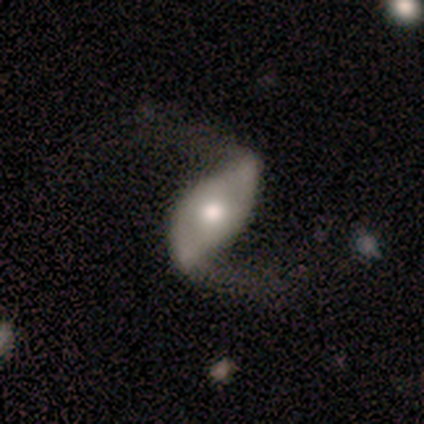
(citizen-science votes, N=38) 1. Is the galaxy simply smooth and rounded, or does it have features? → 89% featured or disk, 5% smooth, 5% star or artifact.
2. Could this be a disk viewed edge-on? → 97% no, 3% yes.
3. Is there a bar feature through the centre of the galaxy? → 42% no, 39% strong, 18% weak.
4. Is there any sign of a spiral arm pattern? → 94% yes, 6% no.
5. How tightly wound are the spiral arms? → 94% loose, 6% medium, 0% tight.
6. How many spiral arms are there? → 100% 2, 0% 1, 0% 3, 0% 4, 0% more than 4, 0% can't tell.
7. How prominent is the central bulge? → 64% moderate, 24% large, 9% small, 3% dominant, 0% none.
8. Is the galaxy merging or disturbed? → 42% none, 6% major disturbance, 3% minor disturbance, 0% merger.